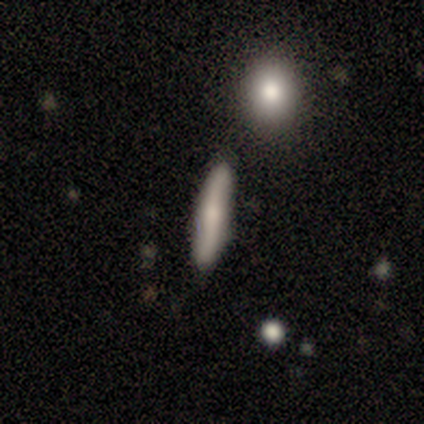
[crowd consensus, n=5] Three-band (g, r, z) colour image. It shows a smooth galaxy with no disk features (60%) that is cigar-shaped (100%). Merging: none (80%).